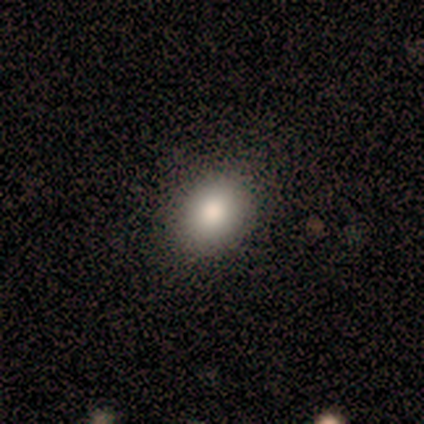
Smooth or featured: smooth — 100%
How rounded: round — 60% (in between — 40%)
Merging: none — 100%